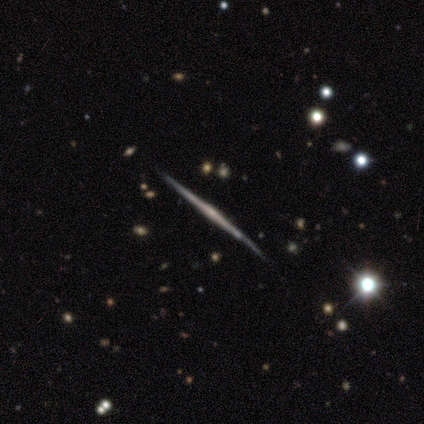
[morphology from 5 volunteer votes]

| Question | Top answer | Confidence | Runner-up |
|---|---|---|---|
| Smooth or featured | featured or disk | 100% | — |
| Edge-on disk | yes | 100% | — |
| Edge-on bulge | rounded | 80% | none (20%) |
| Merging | none | 100% | — |